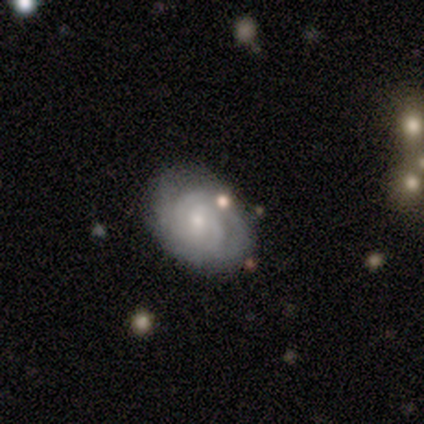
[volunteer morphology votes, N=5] A featured or disk galaxy (60%) with no bar (67%), tight (100%) spiral arms (100%) and a small central bulge (67%). Merging: none (50%).